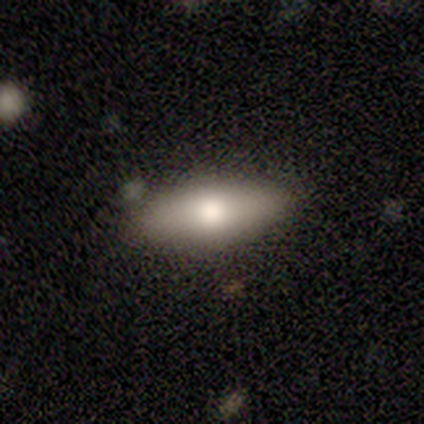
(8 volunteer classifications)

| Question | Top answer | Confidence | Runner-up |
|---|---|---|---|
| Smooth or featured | smooth | 62% | featured or disk (25%) |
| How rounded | in between | 100% | — |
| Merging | none | 86% | major disturbance (14%) |